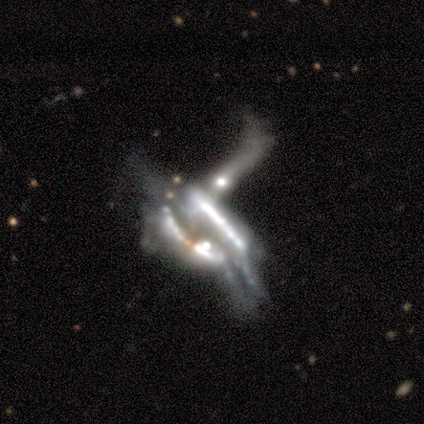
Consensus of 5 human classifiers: Morphology: type=star or artifact (60%).